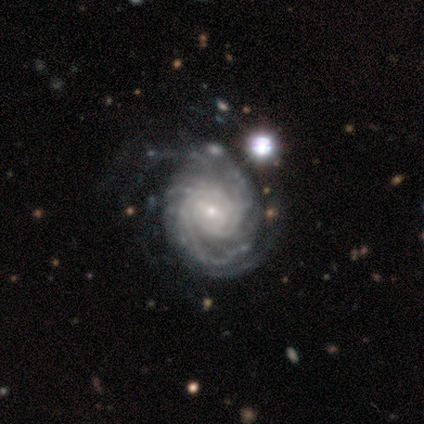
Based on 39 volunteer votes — smooth-or-featured: featured or disk: 95% | smooth: 3% | star or artifact: 3%
  disk-edge-on: no: 100% | yes: 0%
    bar: no: 57% | weak: 35% | strong: 8%
    has-spiral-arms: yes: 97% | no: 3%
      spiral-winding: tight: 69% | medium: 31% | loose: 0%
      spiral-arm-count: 2: 36% | can't tell: 22% | 3: 19% | more than 4: 17% | 4: 6% | 1: 0%
    bulge-size: small: 76% | moderate: 19% | large: 5% | dominant: 0% | none: 0%
  merging: none: 50% | minor disturbance: 26% | major disturbance: 5% | merger: 0%